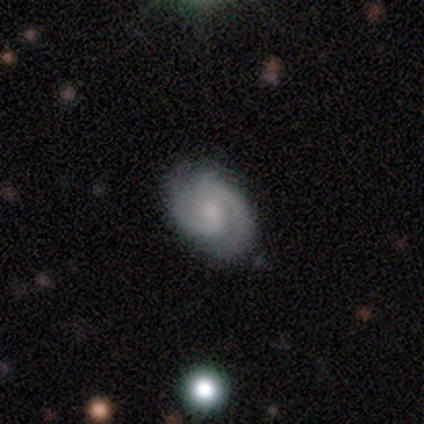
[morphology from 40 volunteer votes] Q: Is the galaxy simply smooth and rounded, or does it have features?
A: featured or disk — 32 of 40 (80%).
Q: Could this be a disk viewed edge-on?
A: no — 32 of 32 (100%).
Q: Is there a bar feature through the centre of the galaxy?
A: weak — 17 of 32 (53%).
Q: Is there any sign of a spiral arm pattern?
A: yes — 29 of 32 (91%).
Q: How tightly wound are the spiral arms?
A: medium — 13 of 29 (45%).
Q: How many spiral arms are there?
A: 2 — 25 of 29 (86%).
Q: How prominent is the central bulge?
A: small — 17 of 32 (53%).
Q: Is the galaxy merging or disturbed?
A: none — 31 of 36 (86%).